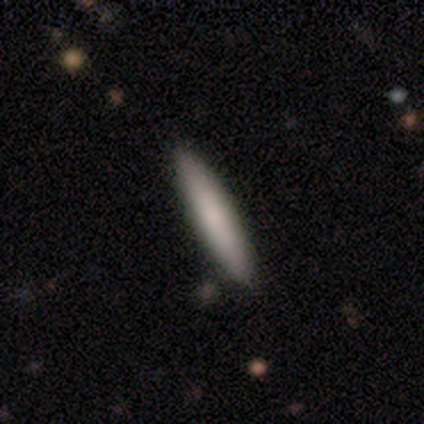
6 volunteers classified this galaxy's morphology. Volunteers were most divided on "smooth or featured": smooth: 67%, featured or disk: 33%, star or artifact: 0%. More confident: how rounded — cigar-shaped (100%); merging — none (100%).